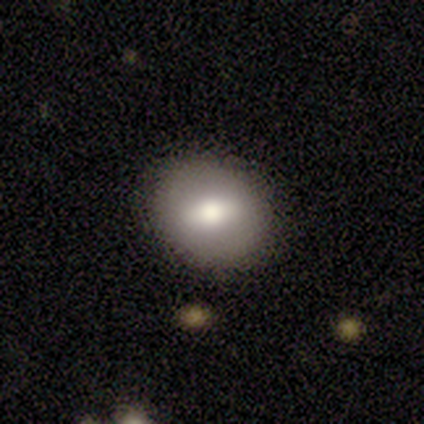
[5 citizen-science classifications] Morphology: type=smooth (60%); roundness=round (100%); merging=none (80%).